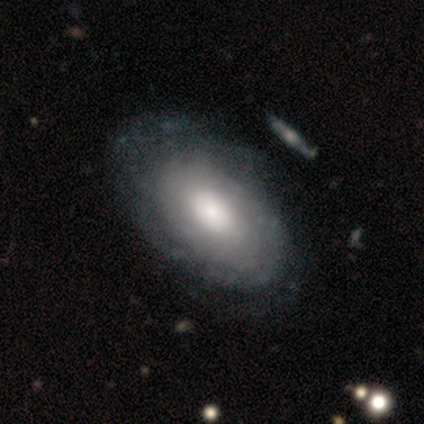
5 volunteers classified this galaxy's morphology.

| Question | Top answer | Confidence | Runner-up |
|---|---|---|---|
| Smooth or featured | smooth | 60% | featured or disk (40%) |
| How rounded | in between | 100% | — |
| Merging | none | 60% | minor disturbance (40%) |